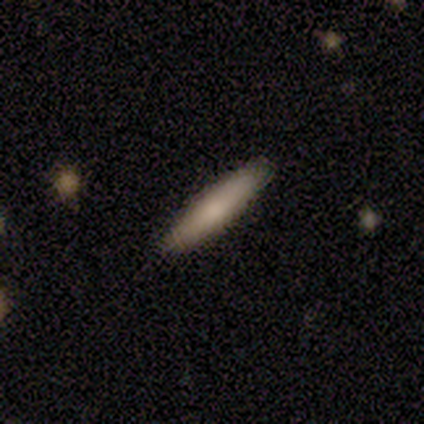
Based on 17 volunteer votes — Smooth or featured? smooth (65%)
How rounded? cigar-shaped (91%)
Merging? none (100%)